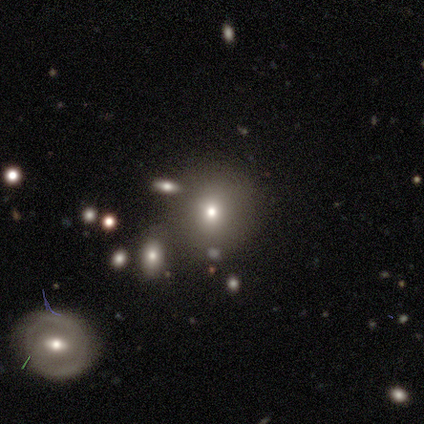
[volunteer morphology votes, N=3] Overall: smooth (67%; star or artifact 33%). How rounded: round (50%, tied with in between). Merging: none (50%, tied with major disturbance).